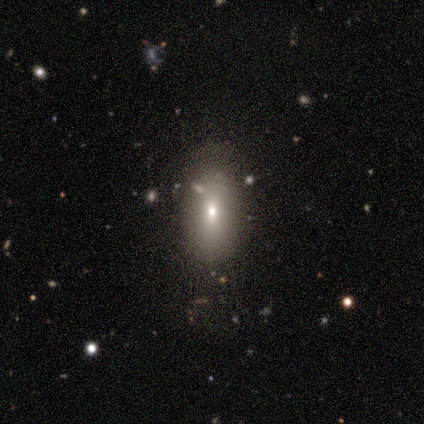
A smooth galaxy with no disk features (100%) that is in between round and cigar-shaped (100%). Merging: none (100%).